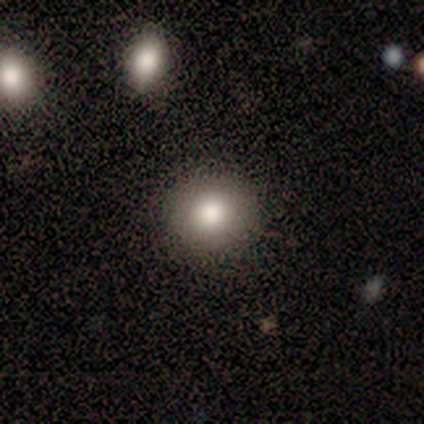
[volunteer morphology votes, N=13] Smooth or featured? smooth (69%)
How rounded? round (78%)
Merging? none (100%)